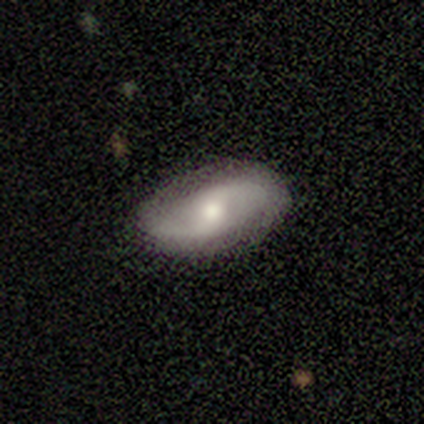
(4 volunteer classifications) Smooth or featured?
  - smooth: 50% * (tied)
  - featured or disk: 50% * (tied)
  - star or artifact: 0%
How rounded?
  - in between: 100% *
  - round: 0%
  - cigar-shaped: 0%
Merging?
  - none: 75% *
  - minor disturbance: 25%
  - major disturbance: 0%
  - merger: 0%